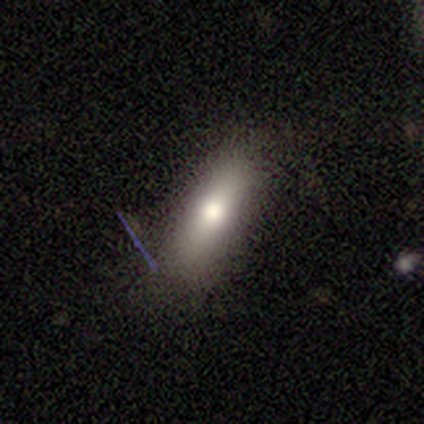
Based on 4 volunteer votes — This is clearly a smooth galaxy (100%). How rounded: likely in between (75%). Merging: possibly minor disturbance (50%).